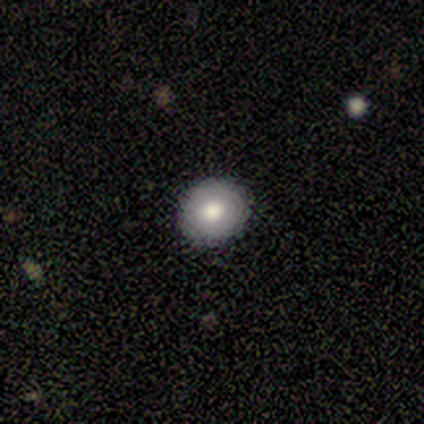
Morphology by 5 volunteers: smooth-or-featured: smooth: 60% | featured or disk: 40% | star or artifact: 0%
  how-rounded: round: 100% | in between: 0% | cigar-shaped: 0%
  merging: none: 80% | minor disturbance: 20% | major disturbance: 0% | merger: 0%